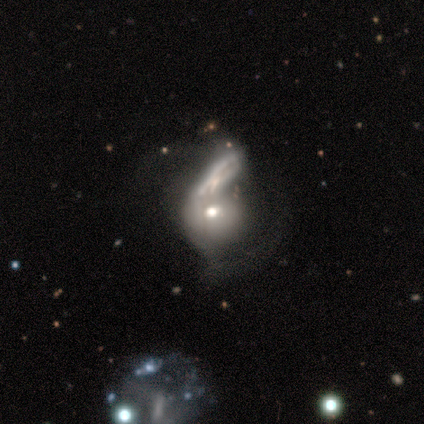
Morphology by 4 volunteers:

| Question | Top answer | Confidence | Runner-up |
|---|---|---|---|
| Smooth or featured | smooth | 50% | tied: featured or disk (50%) |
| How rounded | round | 100% | — |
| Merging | major disturbance | 50% | tied: merger (50%) |